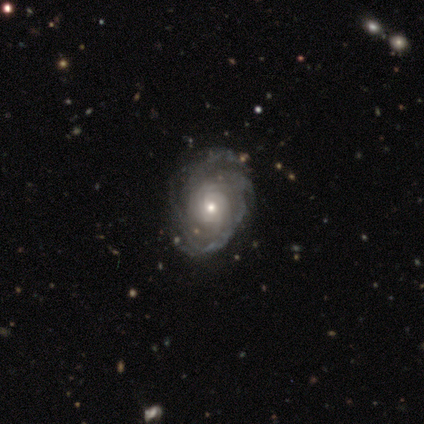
Morphology: type=featured or disk (100%); edge-on=no (100%); bar=no (100%); spiral arms=yes (100%); winding=tight (86%); arm count=can't tell (57%); bulge=small (86%); merging=none (71%).